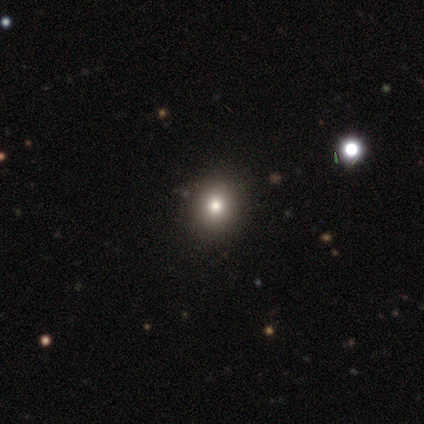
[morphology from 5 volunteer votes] smooth_or_featured: smooth (p=1.00)
how_rounded: round (p=1.00)
merging: none (p=1.00)